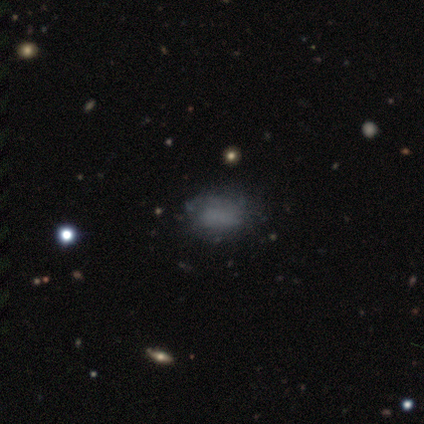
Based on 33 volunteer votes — Morphology: type=smooth (48%); roundness=in between (94%); merging=none (65%).